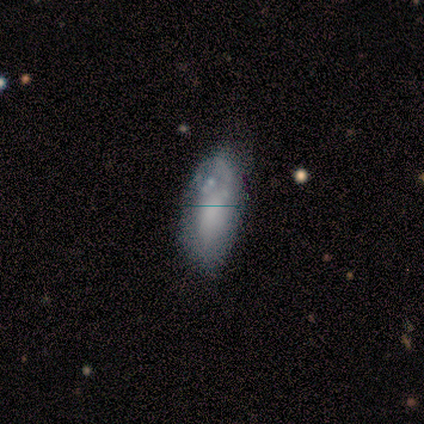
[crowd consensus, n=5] Smooth or featured?
  - smooth: 80% *
  - featured or disk: 20%
  - star or artifact: 0%
How rounded?
  - in between: 50% * (tied)
  - cigar-shaped: 50% * (tied)
  - round: 0%
Merging?
  - none: 80% *
  - major disturbance: 20%
  - minor disturbance: 0%
  - merger: 0%